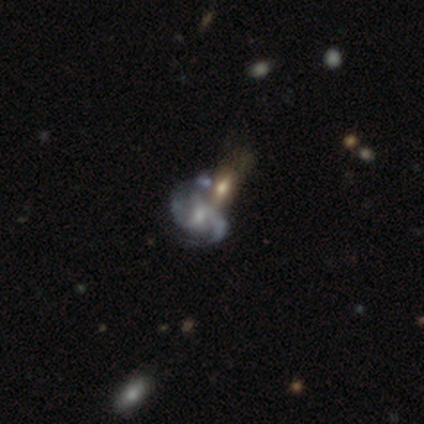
smooth-or-featured: featured or disk: 100% | smooth: 0% | star or artifact: 0%
  disk-edge-on: no: 100% | yes: 0%
    bar: no: 50% | strong: 25% | weak: 25%
    has-spiral-arms: yes: 100% | no: 0%
      spiral-winding: medium: 50% | tight: 25% | loose: 25%
      spiral-arm-count: 2: 50% (tied) | 3: 50% (tied) | 1: 0% | 4: 0% | more than 4: 0% | can't tell: 0%
    bulge-size: moderate: 50% (tied) | small: 50% (tied) | dominant: 0% | large: 0% | none: 0%
  merging: merger: 75% | minor disturbance: 25% | none: 0% | major disturbance: 0%